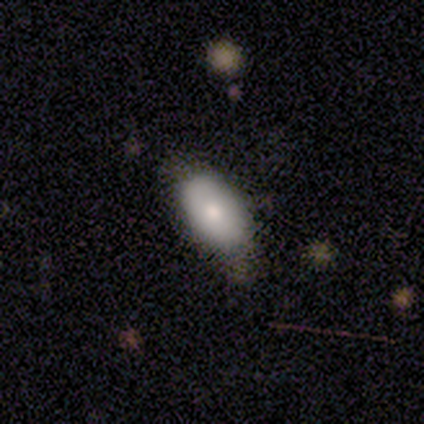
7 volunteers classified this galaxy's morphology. Smooth or featured?
  - smooth: 57% *
  - featured or disk: 43%
  - star or artifact: 0%
How rounded?
  - in between: 100% *
  - round: 0%
  - cigar-shaped: 0%
Merging?
  - none: 86% *
  - minor disturbance: 14%
  - major disturbance: 0%
  - merger: 0%